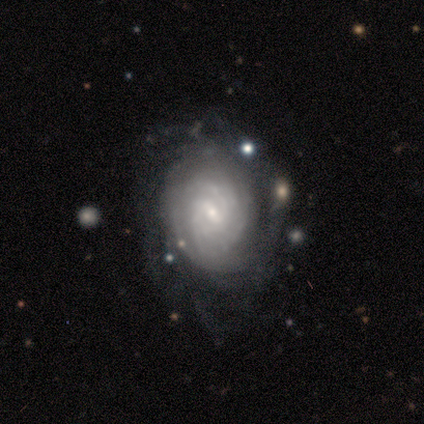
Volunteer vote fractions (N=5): A featured or disk galaxy (100%) with a weak bar (80%), more than 4 (60%) tight (100%) spiral arms (100%) and a small central bulge (100%).

Vote fractions:
- Smooth or featured? featured or disk: 100% / smooth: 0% / star or artifact: 0%
- Edge-on disk? no: 100% / yes: 0%
- Bar? weak: 80% / no: 20% / strong: 0%
- Spiral arms? yes: 100% / no: 0%
- Spiral winding? tight: 100% / medium: 0% / loose: 0%
- Spiral arm count? more than 4: 60% / can't tell: 40% / 1: 0% / 2: 0% / 3: 0% / 4: 0%
- Bulge size? small: 100% / dominant: 0% / large: 0% / moderate: 0% / none: 0%
- Merging? none: 80% / merger: 20% / minor disturbance: 0% / major disturbance: 0%